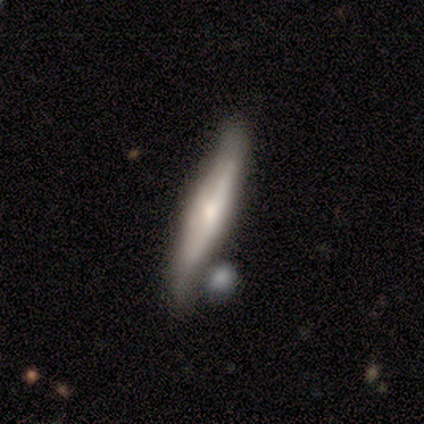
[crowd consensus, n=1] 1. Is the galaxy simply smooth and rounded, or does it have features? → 100% smooth, 0% featured or disk, 0% star or artifact.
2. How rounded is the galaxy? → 100% cigar-shaped, 0% round, 0% in between.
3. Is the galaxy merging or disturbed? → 100% none, 0% minor disturbance, 0% major disturbance, 0% merger.